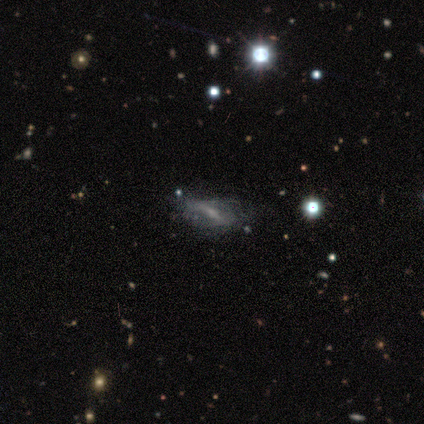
smooth_or_featured: featured or disk (p=0.78) [alt: star or artifact p=0.22]
disk_edge_on: no (p=0.86) [alt: yes p=0.14]
bar: strong (p=0.67) [alt: weak p=0.17]
has_spiral_arms: no (p=0.67) [alt: yes p=0.33]
bulge_size: small (p=0.50) [alt: none p=0.33]
merging: none (p=0.29) [tied with: minor disturbance p=0.29, major disturbance p=0.29]